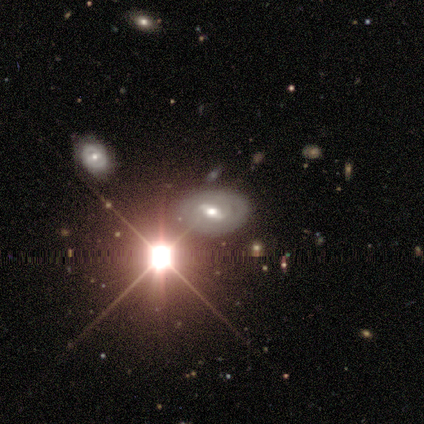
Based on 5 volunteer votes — smooth-or-featured: smooth: 40% (tied) | star or artifact: 40% (tied) | featured or disk: 20%
  how-rounded: in between: 100% | round: 0% | cigar-shaped: 0%
  merging: none: 67% | minor disturbance: 33% | major disturbance: 0% | merger: 0%